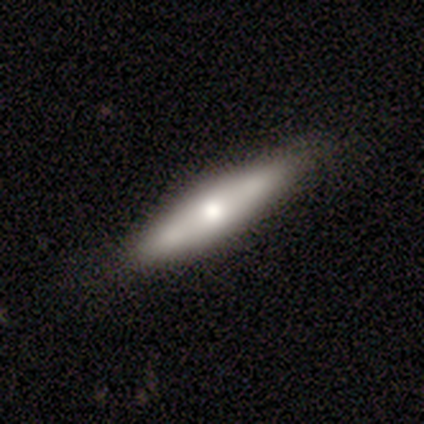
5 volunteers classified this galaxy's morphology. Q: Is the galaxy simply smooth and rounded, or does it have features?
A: smooth — 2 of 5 (40%, tied with featured or disk).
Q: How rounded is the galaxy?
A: cigar-shaped — 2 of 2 (100%).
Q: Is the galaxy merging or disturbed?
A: none — 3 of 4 (75%).